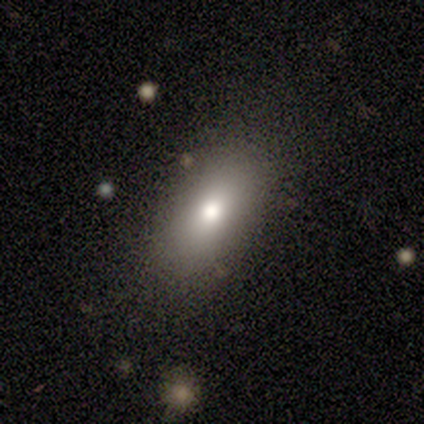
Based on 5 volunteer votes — A smooth galaxy with no disk features (80%) that is in between round and cigar-shaped (75%). Merging: none (80%).